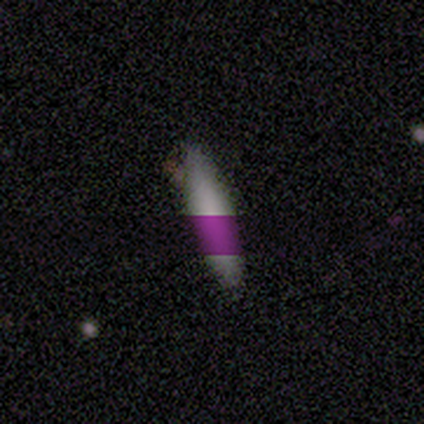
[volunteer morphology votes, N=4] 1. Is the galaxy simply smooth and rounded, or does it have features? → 50% smooth (tied), 50% star or artifact (tied), 0% featured or disk.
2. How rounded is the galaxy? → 100% cigar-shaped, 0% round, 0% in between.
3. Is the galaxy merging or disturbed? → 100% none, 0% minor disturbance, 0% major disturbance, 0% merger.